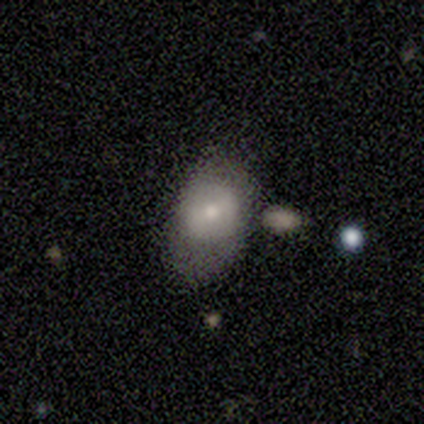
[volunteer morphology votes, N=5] This appears to be a smooth galaxy with no disk features (60%) that is in between round and cigar-shaped (100%). Merging: merger (40%).